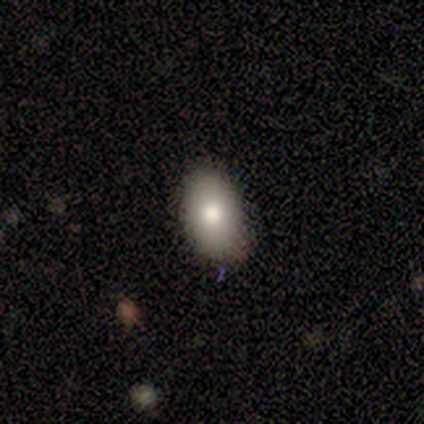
Smooth or featured? smooth (79%)
How rounded? in between (94%)
Merging? none (76%)